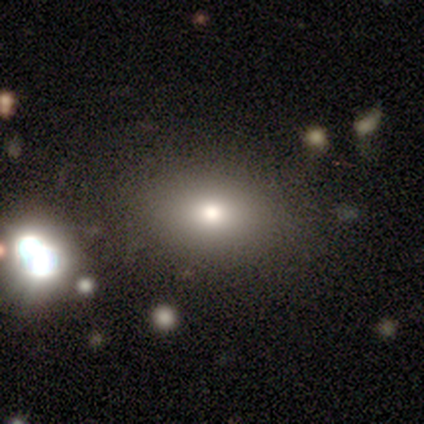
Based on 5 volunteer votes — smooth-or-featured: smooth: 60% | featured or disk: 20% | star or artifact: 20%
  how-rounded: in between: 100% | round: 0% | cigar-shaped: 0%
  merging: none: 100% | minor disturbance: 0% | major disturbance: 0% | merger: 0%